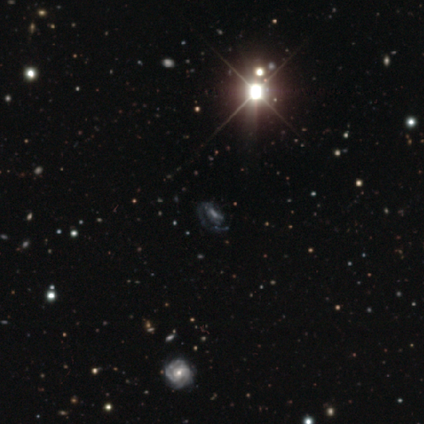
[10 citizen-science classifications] A featured or disk galaxy (50%) with no bar (75%), 1 (75%) tight (75%) spiral arms (100%) and a moderate central bulge (50%). Merging: none (67%).